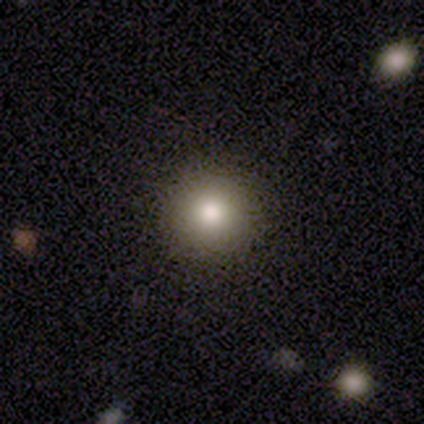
This is likely a smooth galaxy (76%). How rounded: clearly round (100%). Merging: clearly none (91%).